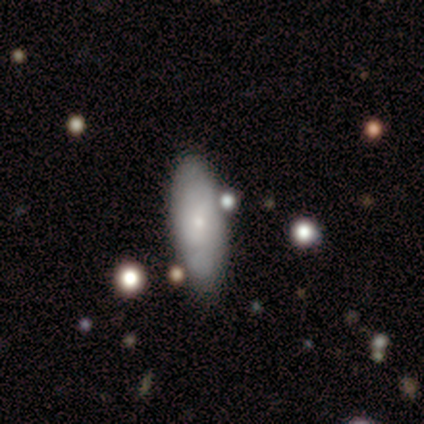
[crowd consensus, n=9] Morphology: type=smooth (67%); roundness=in between (50%); merging=none (88%).